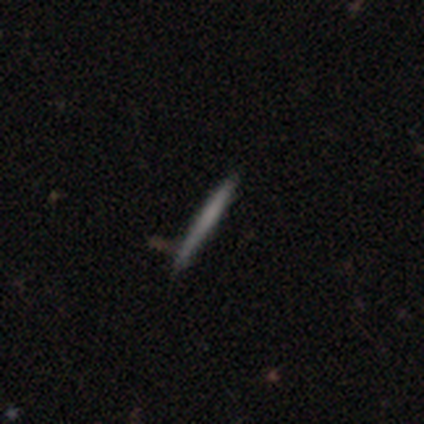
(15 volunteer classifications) Overall: smooth (47%, tied with featured or disk). How rounded: cigar-shaped (100%). Merging: none (93%).